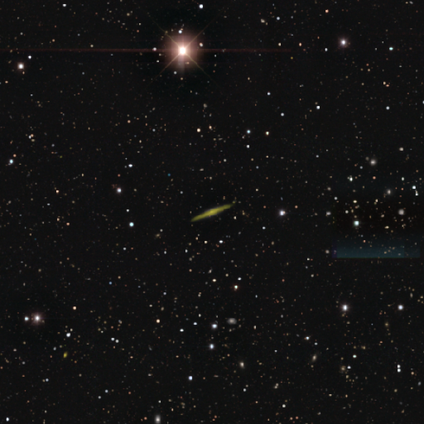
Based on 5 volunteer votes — smooth-or-featured: featured or disk: 80% | star or artifact: 20% | smooth: 0%
  disk-edge-on: yes: 100% | no: 0%
    edge-on-bulge: rounded: 75% | boxy: 25% | none: 0%
  merging: none: 100% | minor disturbance: 0% | major disturbance: 0% | merger: 0%